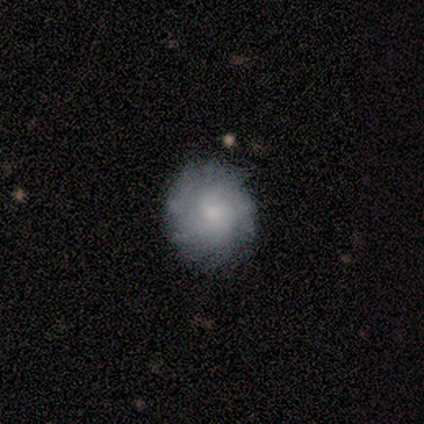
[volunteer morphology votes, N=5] Smooth or featured? 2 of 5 (40%, tied with star or artifact) said smooth. How rounded? 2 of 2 (100%) said round. Merging? 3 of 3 (100%) said none.